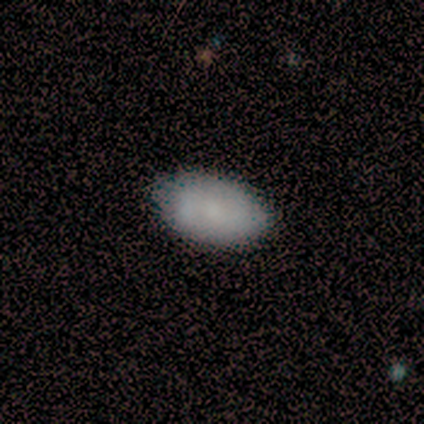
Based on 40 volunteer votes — Morphology: type=smooth (57%); roundness=in between (96%); merging=none (59%).